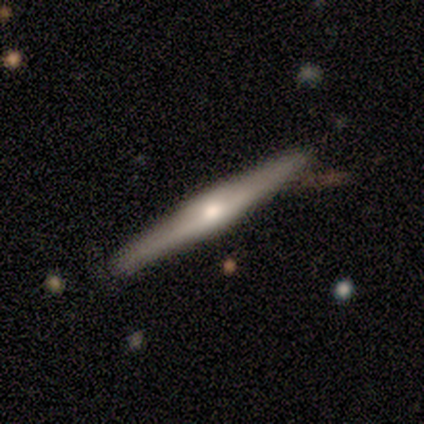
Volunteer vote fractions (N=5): Smooth or featured: featured or disk — 100%
Edge-on disk: yes — 100%
Edge-on bulge: rounded — 100%
Merging: none — 80% (minor disturbance — 20%)